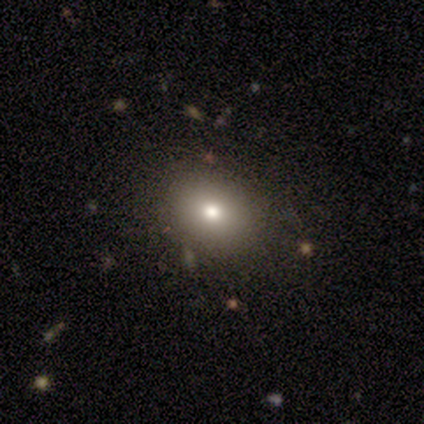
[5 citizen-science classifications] smooth_or_featured: smooth (p=0.80) [alt: featured or disk p=0.20]
how_rounded: round (p=0.50) [tied with: in between p=0.50]
merging: none (p=0.60) [alt: minor disturbance p=0.20]